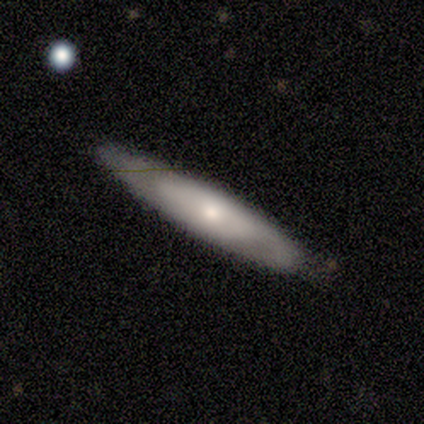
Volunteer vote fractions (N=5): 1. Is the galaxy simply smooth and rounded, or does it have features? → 60% featured or disk, 40% smooth, 0% star or artifact.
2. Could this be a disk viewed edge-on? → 67% no, 33% yes.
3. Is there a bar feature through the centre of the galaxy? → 100% no, 0% strong, 0% weak.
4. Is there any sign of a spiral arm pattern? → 100% no, 0% yes.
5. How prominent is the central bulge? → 50% moderate (tied), 50% small (tied), 0% dominant, 0% large, 0% none.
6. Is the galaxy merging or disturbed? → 60% minor disturbance, 40% none, 0% major disturbance, 0% merger.